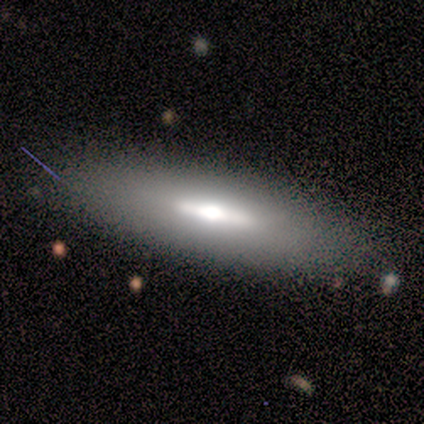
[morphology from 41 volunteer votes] This is possibly a smooth galaxy (51%). How rounded: likely cigar-shaped (67%). Merging: clearly none (84%).